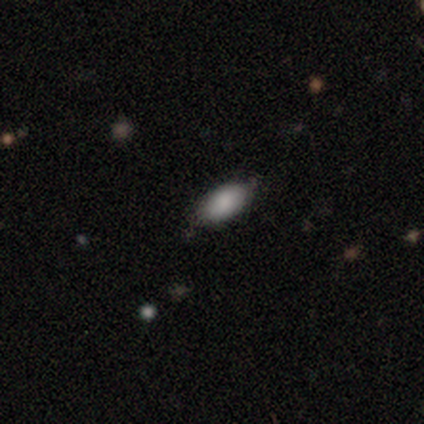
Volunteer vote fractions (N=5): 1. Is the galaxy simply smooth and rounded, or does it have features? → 80% smooth, 20% featured or disk, 0% star or artifact.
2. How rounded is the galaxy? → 100% in between, 0% round, 0% cigar-shaped.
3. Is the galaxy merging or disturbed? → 40% none (tied), 40% minor disturbance (tied), 20% merger, 0% major disturbance.